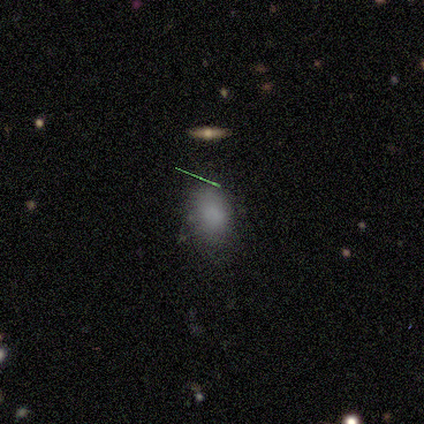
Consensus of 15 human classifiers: This appears to be a smooth galaxy with no disk features (73%) that is in between round and cigar-shaped (73%). Merging: none (69%).